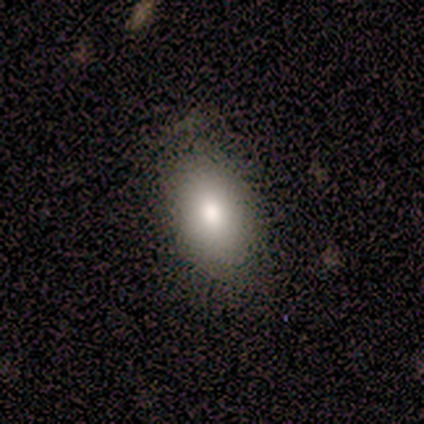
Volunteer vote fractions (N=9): smooth_or_featured: smooth (p=0.78) [alt: featured or disk p=0.22]
how_rounded: in between (p=1.00)
merging: none (p=1.00)